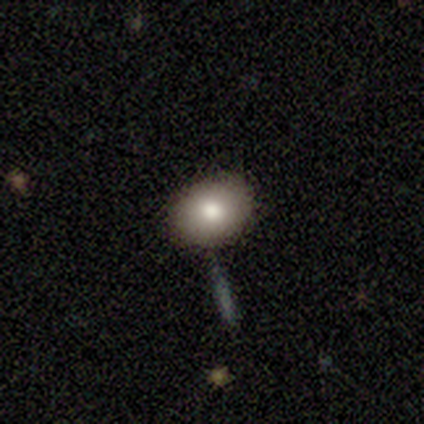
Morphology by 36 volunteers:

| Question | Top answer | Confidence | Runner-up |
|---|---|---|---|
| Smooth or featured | smooth | 89% | featured or disk (6%) |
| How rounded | round | 56% | in between (44%) |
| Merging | none | 91% | merger (6%) |